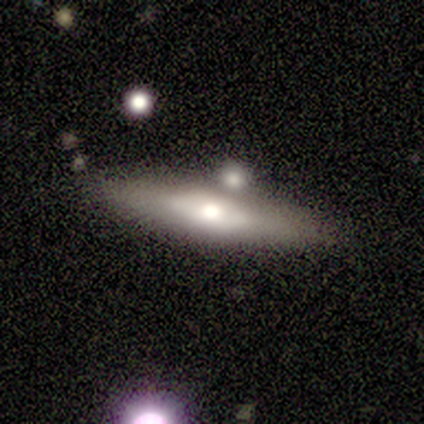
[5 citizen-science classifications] Morphology: type=smooth (60%); roundness=in between (67%); merging=none (50%).